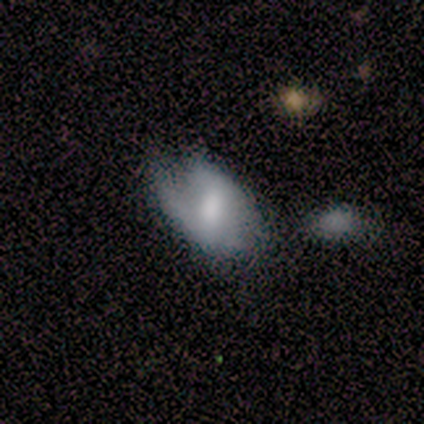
Volunteers were most divided on "smooth or featured": featured or disk: 50%, smooth: 36%, star or artifact: 14%. More confident: edge-on disk — no (100%); bar — weak (86%); spiral arms — yes (86%); bulge size — moderate (71%); spiral winding — loose (67%); spiral arm count — 2 (67%); merging — none (58%).